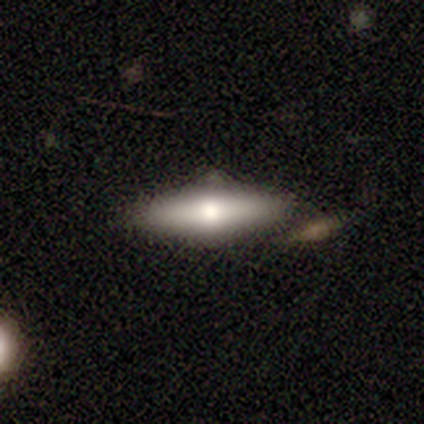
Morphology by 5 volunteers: Smooth or featured: smooth — 80% (featured or disk — 20%)
How rounded: in between — 50% (tied with cigar-shaped — 50%)
Merging: minor disturbance — 40% (tied with merger — 40%)